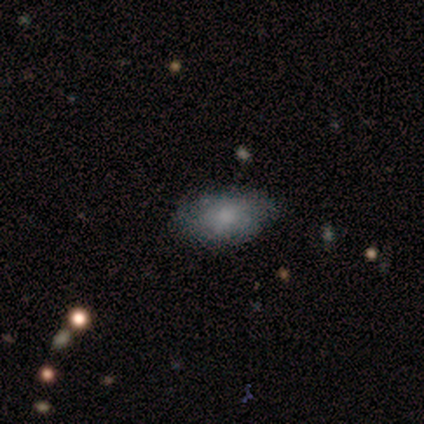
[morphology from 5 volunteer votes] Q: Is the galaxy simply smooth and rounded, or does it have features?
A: smooth — 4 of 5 (80%).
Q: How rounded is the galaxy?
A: in between — 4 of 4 (100%).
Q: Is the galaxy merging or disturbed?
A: none — 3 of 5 (60%).